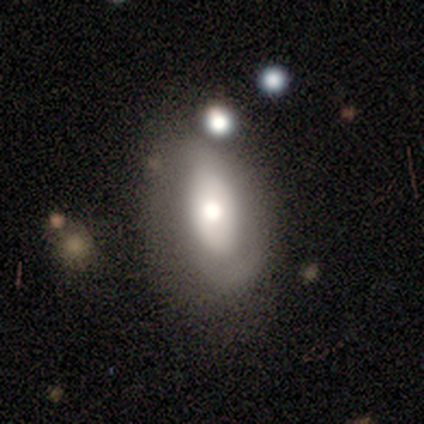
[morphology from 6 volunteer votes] Volunteers were most divided on "merging": major disturbance: 50%, minor disturbance: 33%, none: 17%, merger: 0%. More confident: how rounded — in between (100%); smooth or featured — smooth (67%).